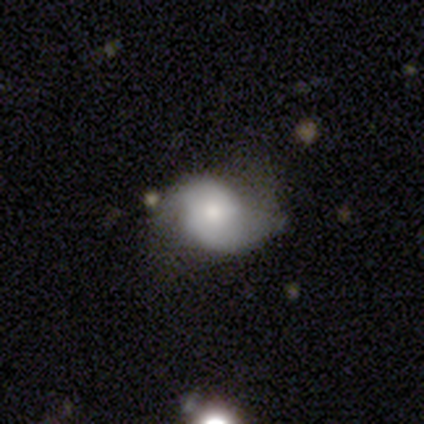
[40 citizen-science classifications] smooth-or-featured: featured or disk: 75% | smooth: 20% | star or artifact: 5%
  disk-edge-on: no: 97% | yes: 3%
    bar: no: 69% | weak: 28% | strong: 3%
    has-spiral-arms: yes: 86% | no: 14%
      spiral-winding: loose: 40% | medium: 32% | tight: 28%
      spiral-arm-count: 2: 84% | can't tell: 12% | 1: 4% | 3: 0% | 4: 0% | more than 4: 0%
    bulge-size: moderate: 38% (tied) | small: 38% (tied) | large: 14% | none: 7% | dominant: 3%
  merging: none: 58% | minor disturbance: 21% | major disturbance: 18% | merger: 3%